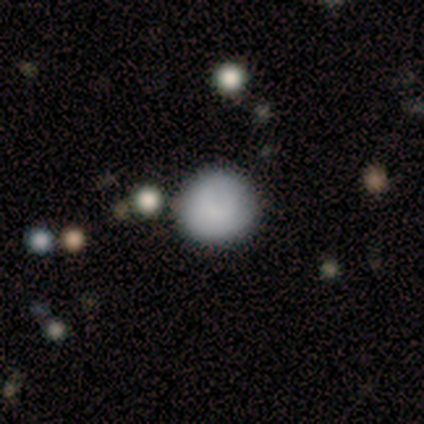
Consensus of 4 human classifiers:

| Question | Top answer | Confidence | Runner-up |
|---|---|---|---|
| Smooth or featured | smooth | 100% | — |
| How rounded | round | 100% | — |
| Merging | none | 75% | minor disturbance (25%) |